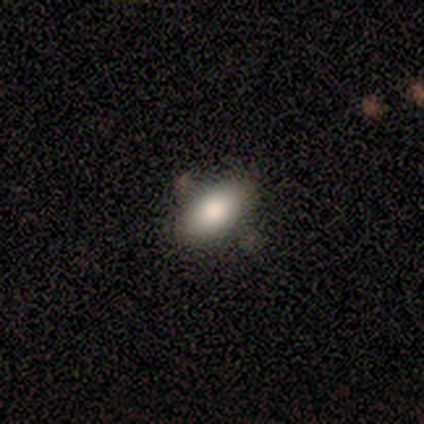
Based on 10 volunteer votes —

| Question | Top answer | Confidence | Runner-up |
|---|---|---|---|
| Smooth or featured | smooth | 70% | star or artifact (20%) |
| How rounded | in between | 100% | — |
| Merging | none | 88% | merger (12%) |